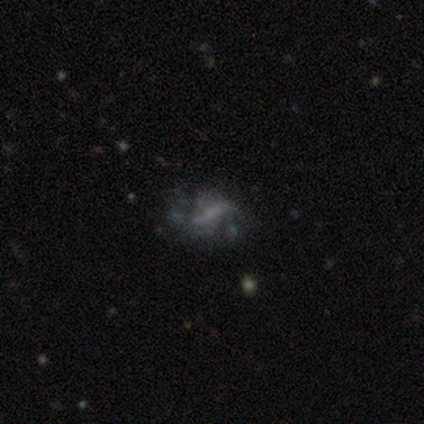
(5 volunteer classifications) This appears to be a smooth galaxy with no disk features (60%) that is round (33%, tied with in between and cigar-shaped). Merging: major disturbance (75%).